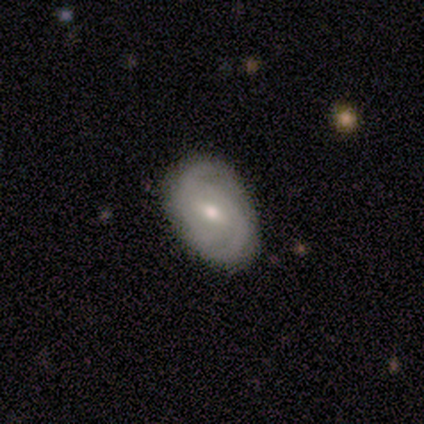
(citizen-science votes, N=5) Smooth or featured? 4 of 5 (80%) said featured or disk. Edge-on disk? 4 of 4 (100%) said no. Bar? 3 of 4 (75%) said weak. Spiral arms? 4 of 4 (100%) said yes. Spiral winding? 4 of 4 (100%) said medium. Spiral arm count? 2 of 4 (50%) said 2. Bulge size? 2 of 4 (50%, tied with small) said moderate. Merging? 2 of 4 (50%, tied with minor disturbance) said none.